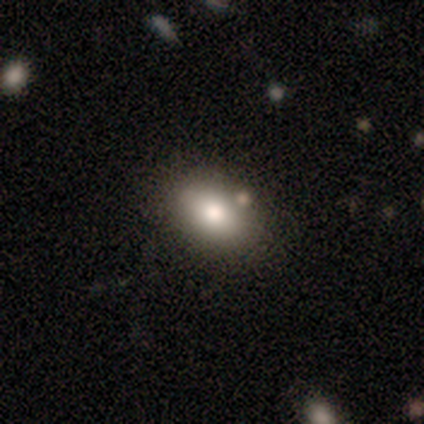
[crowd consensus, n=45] Smooth or featured: smooth — 73% (star or artifact — 16%)
How rounded: in between — 85% (round — 15%)
Merging: none — 79% (minor disturbance — 11%)